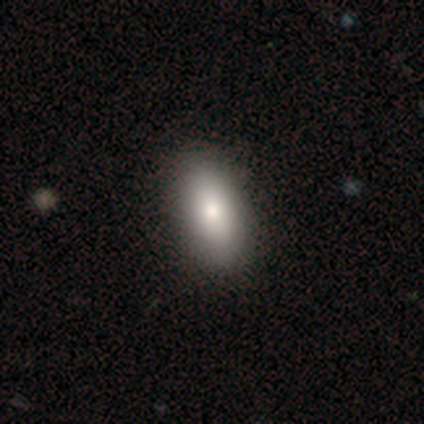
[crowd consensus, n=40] Morphology: type=smooth (82%); roundness=in between (88%); merging=none (78%).